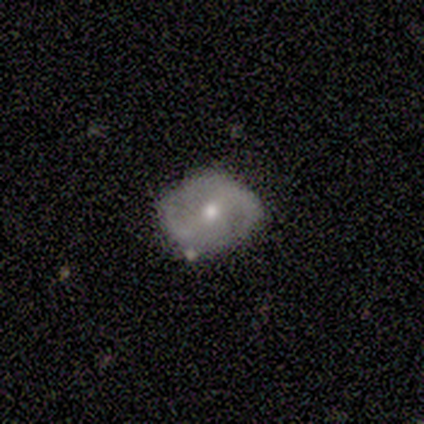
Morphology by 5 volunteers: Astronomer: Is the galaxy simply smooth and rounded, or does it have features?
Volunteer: featured or disk — 80%.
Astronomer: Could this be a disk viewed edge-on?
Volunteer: no — 100%.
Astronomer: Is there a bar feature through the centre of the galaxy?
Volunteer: strong — 50%.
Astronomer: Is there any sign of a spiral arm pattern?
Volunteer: yes — 75%.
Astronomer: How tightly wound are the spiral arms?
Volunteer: medium — 67%.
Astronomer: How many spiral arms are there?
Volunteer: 2 — 100%.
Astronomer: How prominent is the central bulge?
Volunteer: small — 100%.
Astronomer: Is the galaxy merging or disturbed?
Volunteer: none — 100%.